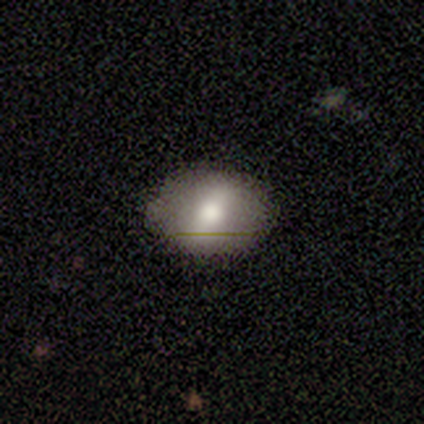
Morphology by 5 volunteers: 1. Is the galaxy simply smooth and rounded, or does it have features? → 80% smooth, 20% star or artifact, 0% featured or disk.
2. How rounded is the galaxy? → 75% round, 25% in between, 0% cigar-shaped.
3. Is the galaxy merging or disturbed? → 100% none, 0% minor disturbance, 0% major disturbance, 0% merger.